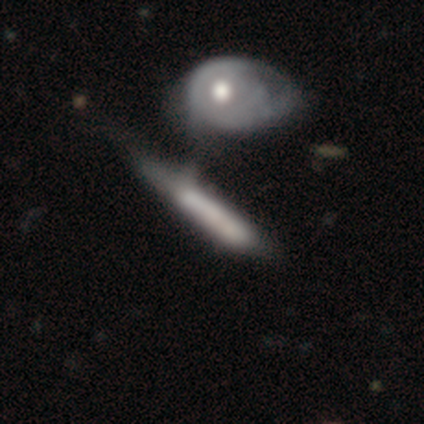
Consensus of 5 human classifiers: smooth-or-featured: featured or disk: 80% | smooth: 20% | star or artifact: 0%
  disk-edge-on: yes: 75% | no: 25%
    edge-on-bulge: none: 67% | rounded: 33% | boxy: 0%
  merging: minor disturbance: 80% | none: 20% | major disturbance: 0% | merger: 0%